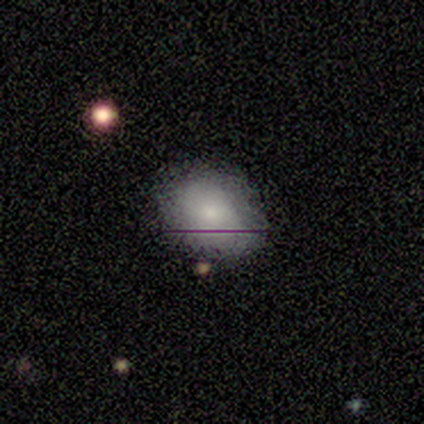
A smooth galaxy with no disk features (40%, tied with featured or disk) that is round (50%, tied with in between).

Vote fractions:
- Smooth or featured? smooth: 40% (tied) / featured or disk: 40% (tied) / star or artifact: 20%
- How rounded? round: 50% (tied) / in between: 50% (tied) / cigar-shaped: 0%
- Merging? none: 100% / minor disturbance: 0% / major disturbance: 0% / merger: 0%